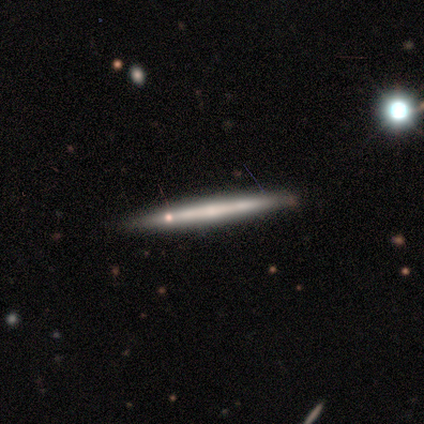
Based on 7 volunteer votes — Smooth or featured? featured or disk (57%)
Edge-on disk? yes (100%)
Edge-on bulge? none (75%)
Merging? none (100%)